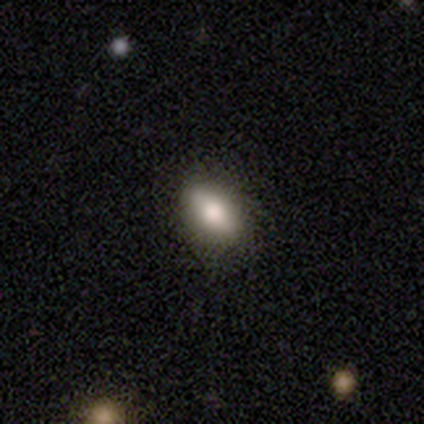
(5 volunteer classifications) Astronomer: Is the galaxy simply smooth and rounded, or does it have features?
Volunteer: smooth — 80%.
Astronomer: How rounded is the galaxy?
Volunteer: in between — 50%.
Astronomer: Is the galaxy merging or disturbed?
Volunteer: none — 80%.